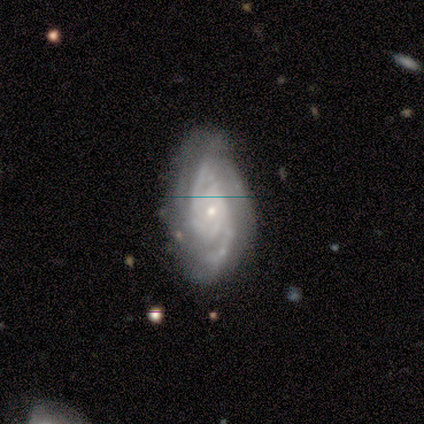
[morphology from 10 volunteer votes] Volunteers were most divided on "bar" (2-way tie): weak: 44%, no: 44%, strong: 11%; "spiral arm count" (2-way tie): 2: 33%, 3: 33%, can't tell: 22%, more than 4: 11%, 1: 0%, 4: 0%. More confident: edge-on disk — no (100%); spiral arms — yes (100%); smooth or featured — featured or disk (90%); merging — none (70%); spiral winding — medium (56%); bulge size — small (56%).